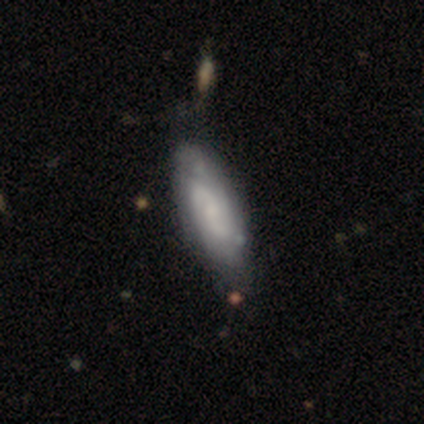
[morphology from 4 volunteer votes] A featured or disk galaxy (75%) with no bar (67%), 3 (67%) tight (67%) spiral arms (100%) and no central bulge (67%). Merging: none (50%, tied with minor disturbance).